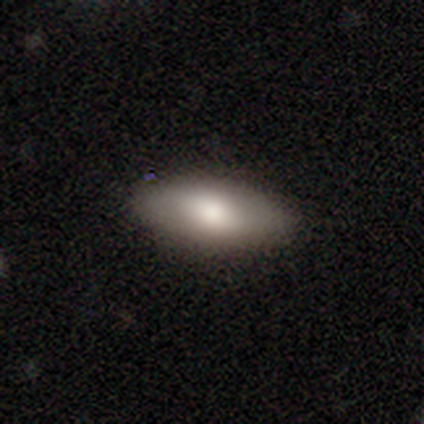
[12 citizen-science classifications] smooth 100%, featured or disk 0%, star or artifact 0%. Down the decision tree: how rounded — in between (92%); merging — none (92%).